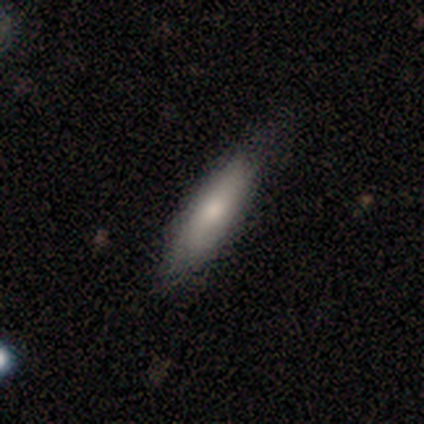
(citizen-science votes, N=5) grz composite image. It shows a smooth galaxy with no disk features (60%) that is cigar-shaped (100%). Merging: none (80%).